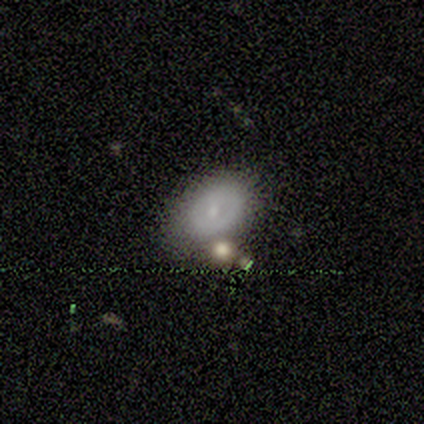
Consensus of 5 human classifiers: Overall: smooth (60%; featured or disk 20%). How rounded: in between (100%). Merging: none (50%, tied with minor disturbance).